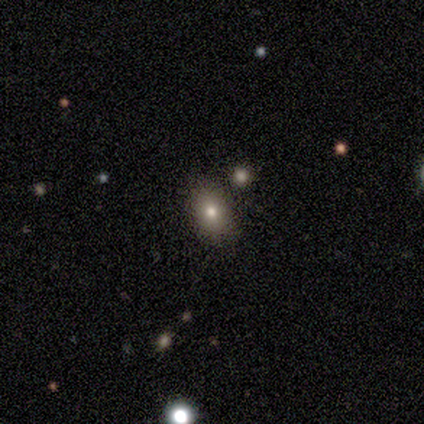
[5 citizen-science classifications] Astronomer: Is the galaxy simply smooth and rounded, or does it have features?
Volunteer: smooth — 60%.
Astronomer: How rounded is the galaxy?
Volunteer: in between — 67%.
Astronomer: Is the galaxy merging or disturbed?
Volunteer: none — 100%.